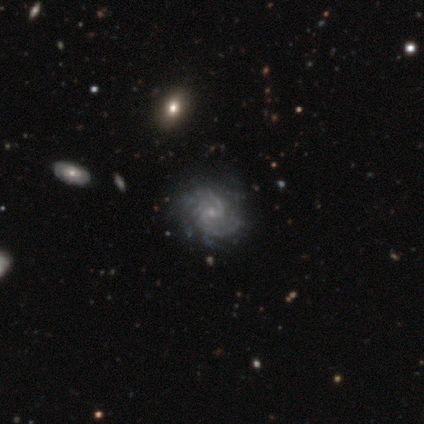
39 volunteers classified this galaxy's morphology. This is clearly a featured or disk galaxy (95%). It is clearly not viewed edge-on (100%). Bar: possibly weak (49%, tied with no). Spiral arm pattern: clearly yes (97%). Spiral arm count: marginally 2 (42%). Spiral winding: possibly medium (50%). Central bulge: likely small (73%). Merging: possibly none (46%).